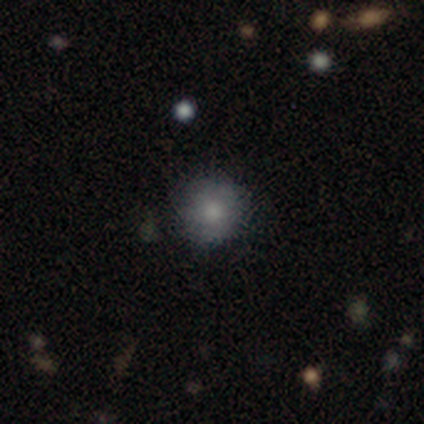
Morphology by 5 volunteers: Overall: smooth (100%). How rounded: round (100%). Merging: none (100%).